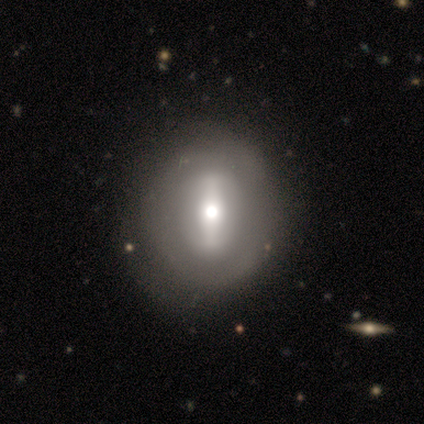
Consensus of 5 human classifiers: This appears to be a featured or disk galaxy (60%) with a strong bar (100%), no spiral arms (67%) and a large central bulge (100%). Merging: none (60%).